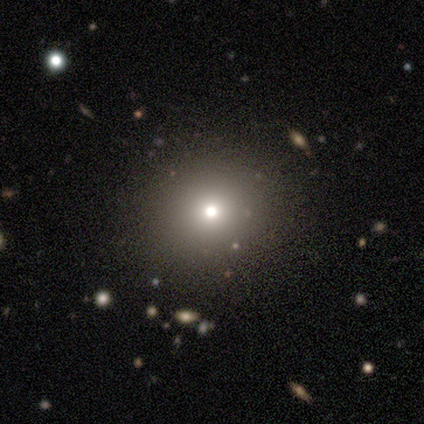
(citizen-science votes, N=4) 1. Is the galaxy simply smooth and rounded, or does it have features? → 50% smooth (tied), 50% star or artifact (tied), 0% featured or disk.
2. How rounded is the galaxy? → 100% round, 0% in between, 0% cigar-shaped.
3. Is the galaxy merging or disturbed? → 100% none, 0% minor disturbance, 0% major disturbance, 0% merger.